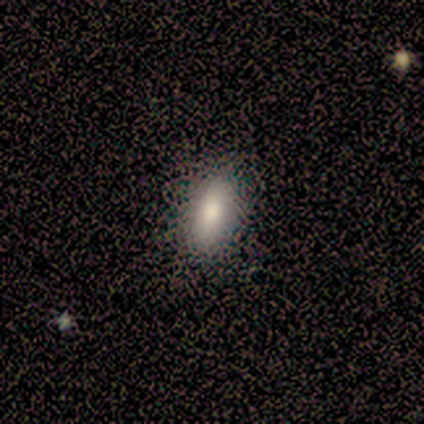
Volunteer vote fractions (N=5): Q: Smooth or featured?
A: smooth (60%); runner-up: featured or disk (20%)
Q: How rounded?
A: in between (100%)
Q: Merging?
A: none (100%)